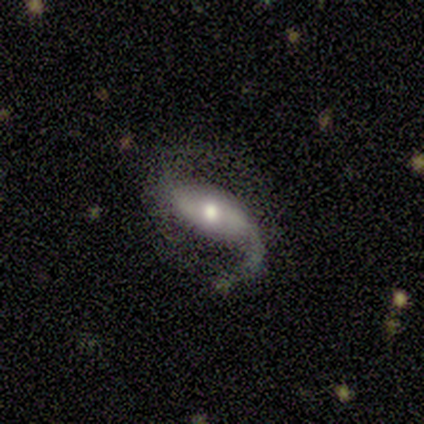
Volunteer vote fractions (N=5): Q: Smooth or featured?
A: featured or disk (100%)
Q: Edge-on disk?
A: no (100%)
Q: Bar?
A: strong (40%); tied with: no (40%)
Q: Spiral arms?
A: yes (80%); runner-up: no (20%)
Q: Spiral winding?
A: loose (100%)
Q: Spiral arm count?
A: 2 (100%)
Q: Bulge size?
A: small (60%); runner-up: moderate (40%)
Q: Merging?
A: none (80%); runner-up: merger (20%)